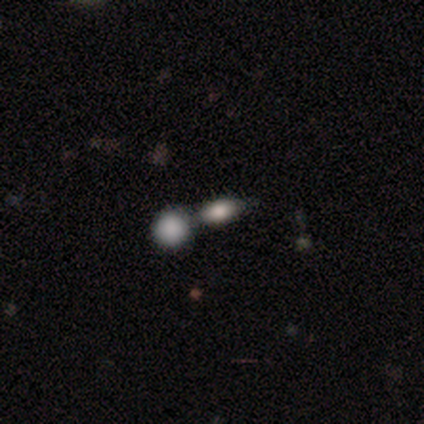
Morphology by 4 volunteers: Smooth or featured? 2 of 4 (50%) said smooth. How rounded? 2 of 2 (100%) said in between. Merging? 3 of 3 (100%) said merger.